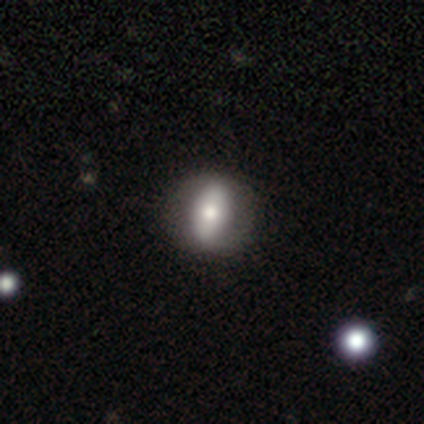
Overall: smooth (56%; featured or disk 38%). How rounded: in between (73%). Merging: none (86%).